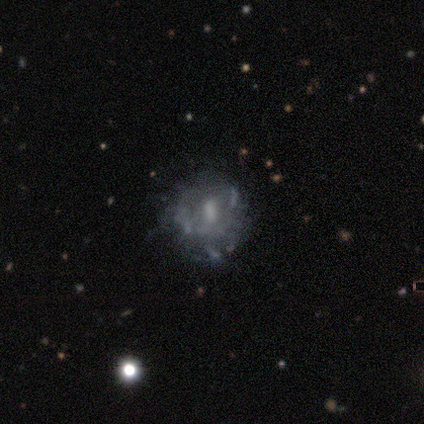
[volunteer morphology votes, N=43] A featured or disk galaxy (70%) with no bar (63%), no spiral arms (70%) and no central bulge (37%). Merging: none (53%).